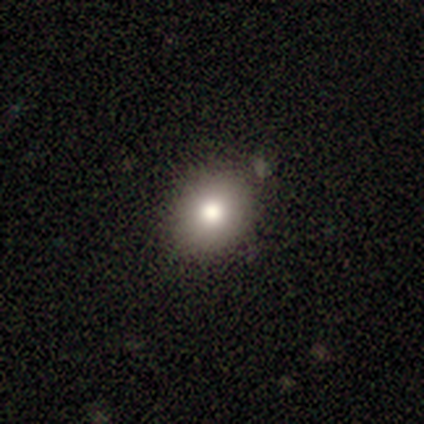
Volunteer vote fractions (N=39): Smooth or featured? smooth (87%)
How rounded? round (59%)
Merging? none (89%)